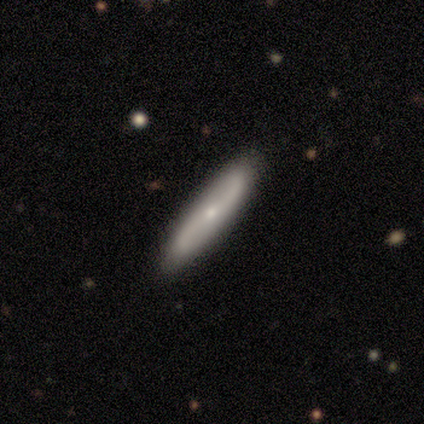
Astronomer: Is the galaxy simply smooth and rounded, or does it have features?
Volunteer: smooth — 50%, tied with featured or disk at 50%.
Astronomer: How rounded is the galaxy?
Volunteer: cigar-shaped — 100%.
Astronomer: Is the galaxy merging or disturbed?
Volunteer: none — 100%.